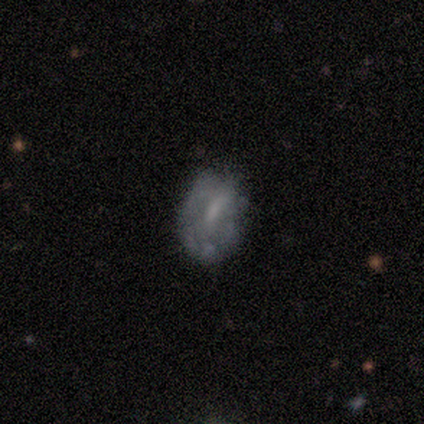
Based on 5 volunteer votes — Smooth or featured? featured or disk (60%)
Edge-on disk? no (100%)
Bar? no (67%)
Spiral arms? no (100%)
Bulge size? none (67%)
Merging? none (60%)